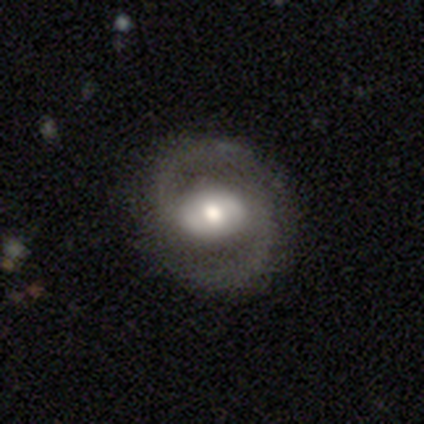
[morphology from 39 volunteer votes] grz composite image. It shows a featured or disk galaxy (85%) with a weak bar (48%), 2 (100%) medium (63%) spiral arms (91%) and a moderate central bulge (67%). Merging: none (97%).